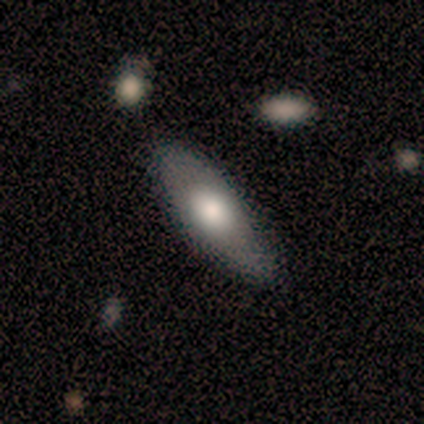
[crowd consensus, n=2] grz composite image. It shows a smooth galaxy with no disk features (50%, tied with star or artifact) that is in between round and cigar-shaped (100%). Merging: none (100%).